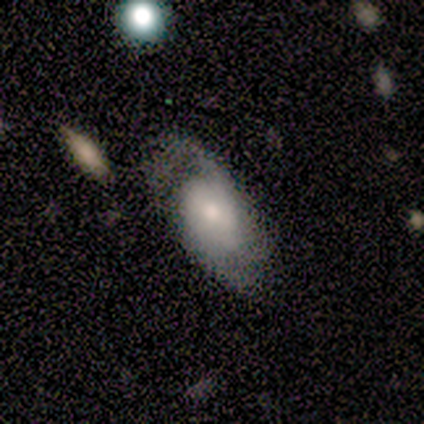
Q: Smooth or featured?
A: smooth (50%); tied with: featured or disk (50%)
Q: How rounded?
A: in between (100%)
Q: Merging?
A: major disturbance (50%); runner-up: none (25%)